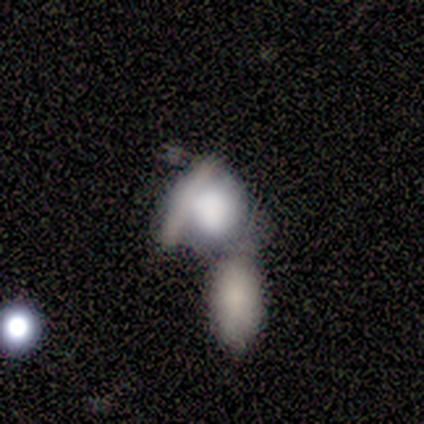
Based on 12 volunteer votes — Overall: smooth (67%). How rounded: round (62%; in between 38%). Merging: merger (55%; none 27%).